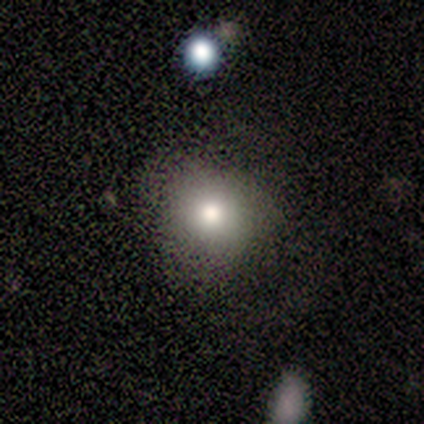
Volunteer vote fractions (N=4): A smooth galaxy with no disk features (50%) that is round (50%, tied with in between).

Vote fractions:
- Smooth or featured? smooth: 50% / featured or disk: 25% / star or artifact: 25%
- How rounded? round: 50% (tied) / in between: 50% (tied) / cigar-shaped: 0%
- Merging? none: 33% (tied) / minor disturbance: 33% (tied) / major disturbance: 33% (tied) / merger: 0%